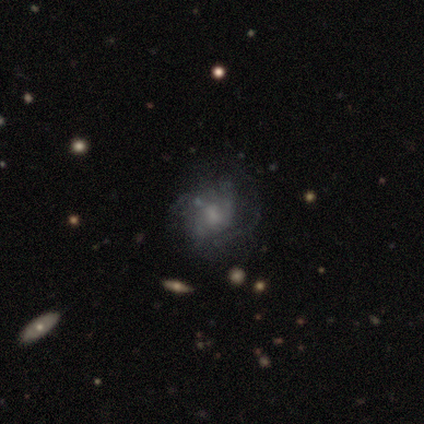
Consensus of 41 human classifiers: Morphology: type=featured or disk (59%); edge-on=no (100%); bar=no (71%); spiral arms=yes (62%); winding=medium (60%); arm count=can't tell (67%); bulge=none (42%); merging=none (49%).